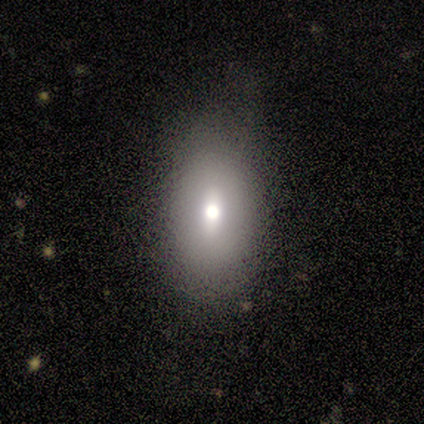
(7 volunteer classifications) Smooth or featured? 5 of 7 (71%) said smooth. How rounded? 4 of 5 (80%) said in between. Merging? 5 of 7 (71%) said none.